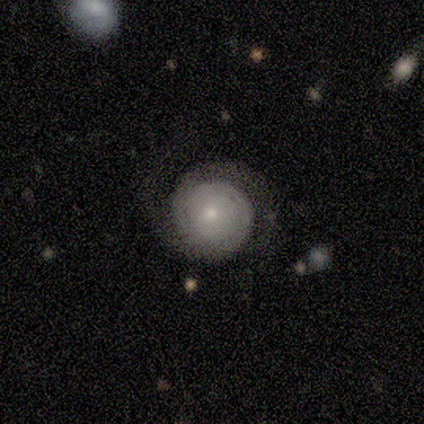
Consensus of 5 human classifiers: Smooth or featured? 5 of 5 (100%) said featured or disk. Edge-on disk? 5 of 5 (100%) said no. Bar? 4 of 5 (80%) said no. Spiral arms? 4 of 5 (80%) said yes. Spiral winding? 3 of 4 (75%) said tight. Spiral arm count? 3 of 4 (75%) said 2. Bulge size? 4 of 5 (80%) said small. Merging? 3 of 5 (60%) said none.